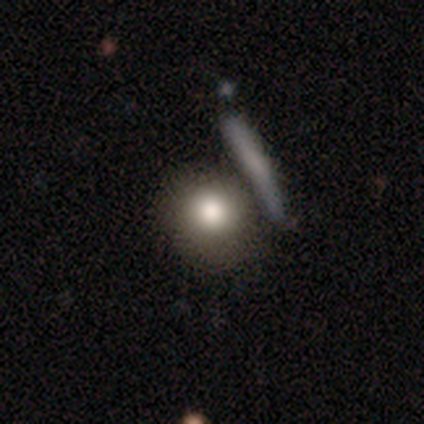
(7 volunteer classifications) smooth-or-featured: smooth: 71% | featured or disk: 14% | star or artifact: 14%
  how-rounded: round: 80% | cigar-shaped: 20% | in between: 0%
  merging: none: 83% | major disturbance: 17% | minor disturbance: 0% | merger: 0%